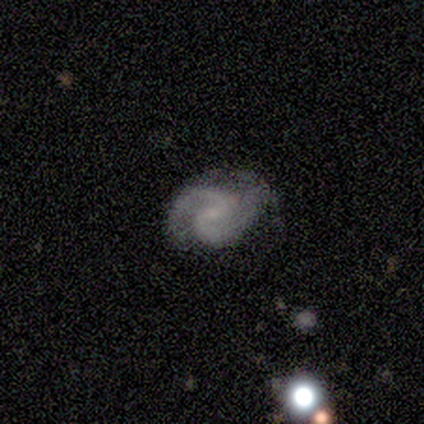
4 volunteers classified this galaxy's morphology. featured or disk 100%, smooth 0%, star or artifact 0%. Down the decision tree: edge-on disk — no (75%); bar — weak (67%); spiral arms — yes (100%); spiral arm count — 2 (100%); spiral winding — tight (67%); bulge size — none (67%); merging — none (75%).